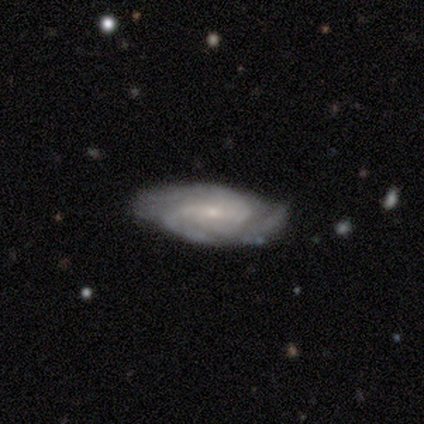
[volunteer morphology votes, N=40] Smooth or featured?
  - featured or disk: 82% *
  - smooth: 15%
  - star or artifact: 2%
Edge-on disk?
  - no: 97% *
  - yes: 3%
Bar?
  - weak: 38% * (tied)
  - no: 38% * (tied)
  - strong: 25%
Spiral arms?
  - yes: 97% *
  - no: 3%
Spiral winding?
  - tight: 48% *
  - medium: 42%
  - loose: 10%
Spiral arm count?
  - 3: 35% *
  - 2: 29%
  - can't tell: 26%
  - 4: 6%
  - 1: 3%
  - more than 4: 0%
Bulge size?
  - small: 81% *
  - moderate: 16%
  - none: 3%
  - dominant: 0%
  - large: 0%
Merging?
  - none: 79% *
  - minor disturbance: 18%
  - merger: 3%
  - major disturbance: 0%